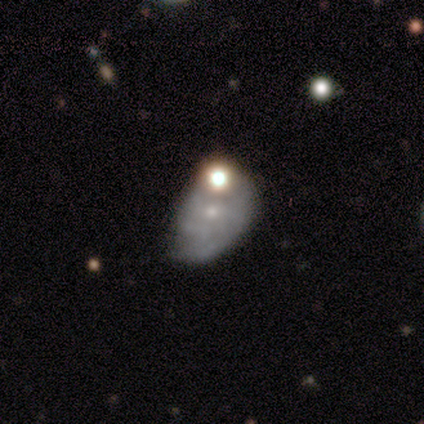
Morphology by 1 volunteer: Q: Smooth or featured?
A: featured or disk (100%)
Q: Edge-on disk?
A: no (100%)
Q: Bar?
A: no (100%)
Q: Spiral arms?
A: yes (100%)
Q: Spiral winding?
A: tight (100%)
Q: Spiral arm count?
A: 4 (100%)
Q: Bulge size?
A: small (100%)
Q: Merging?
A: none (100%)